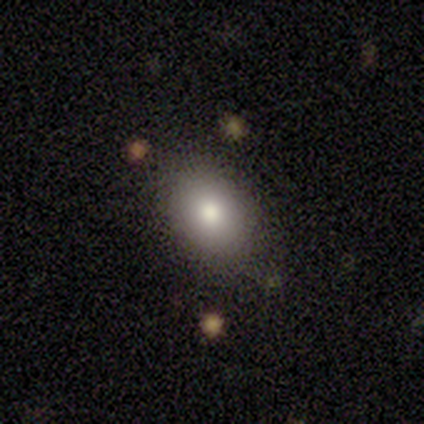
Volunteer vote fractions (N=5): Overall: smooth (80%). How rounded: in between (75%). Merging: none (80%).